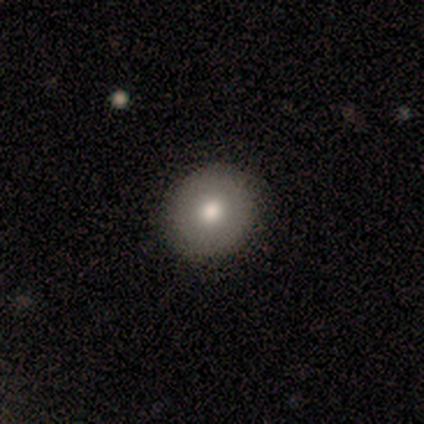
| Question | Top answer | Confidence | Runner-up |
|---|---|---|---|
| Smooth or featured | smooth | 80% | star or artifact (20%) |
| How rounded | round | 100% | — |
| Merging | none | 75% | minor disturbance (25%) |